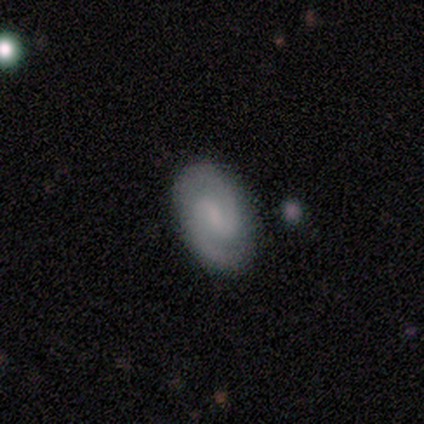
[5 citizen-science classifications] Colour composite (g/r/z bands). It shows a featured or disk galaxy (80%) with a strong bar (50%, tied with weak), 2 (100%) medium (75%) spiral arms (100%) and a small central bulge (100%). Merging: none (80%).